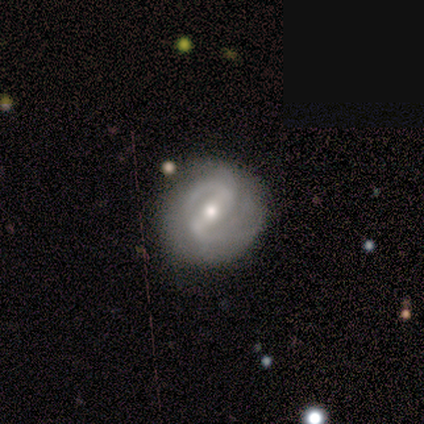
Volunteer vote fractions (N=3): A featured or disk galaxy (67%) with a strong bar (50%, tied with weak), 2 (100%) medium (50%, tied with loose) spiral arms (100%) and a small central bulge (100%). Merging: none (67%).